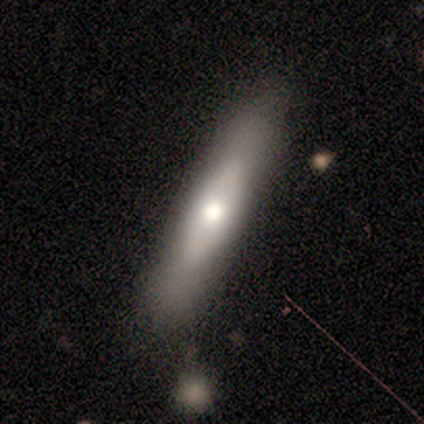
Smooth or featured?
  - smooth: 50% * (tied)
  - featured or disk: 50% * (tied)
  - star or artifact: 0%
How rounded?
  - cigar-shaped: 100% *
  - round: 0%
  - in between: 0%
Merging?
  - none: 50% *
  - minor disturbance: 25%
  - major disturbance: 25%
  - merger: 0%